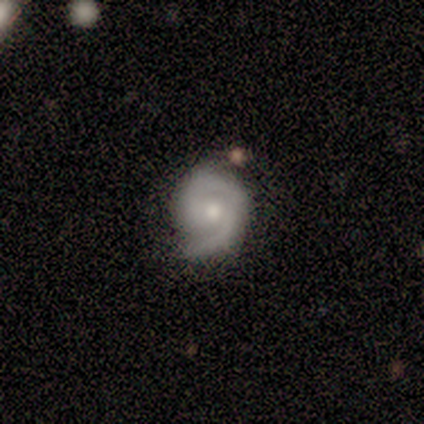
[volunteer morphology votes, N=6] smooth_or_featured: featured or disk (p=0.83) [alt: star or artifact p=0.17]
disk_edge_on: no (p=1.00)
bar: no (p=1.00)
has_spiral_arms: yes (p=1.00)
spiral_winding: tight (p=0.80) [alt: loose p=0.20]
spiral_arm_count: 1 (p=0.80) [alt: 2 p=0.20]
bulge_size: small (p=0.80) [alt: moderate p=0.20]
merging: minor disturbance (p=0.60) [alt: none p=0.40]